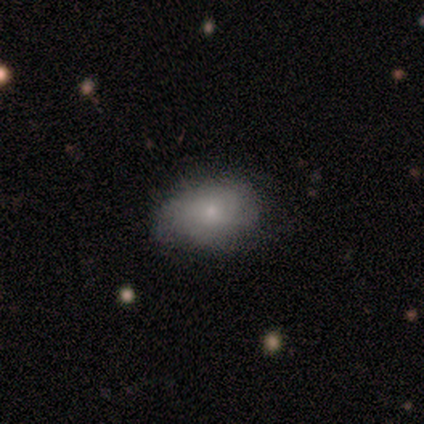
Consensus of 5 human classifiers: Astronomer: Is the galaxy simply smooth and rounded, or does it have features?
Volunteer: smooth — 80%.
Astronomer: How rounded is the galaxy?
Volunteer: in between — 100%.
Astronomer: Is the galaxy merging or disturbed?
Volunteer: none — 100%.